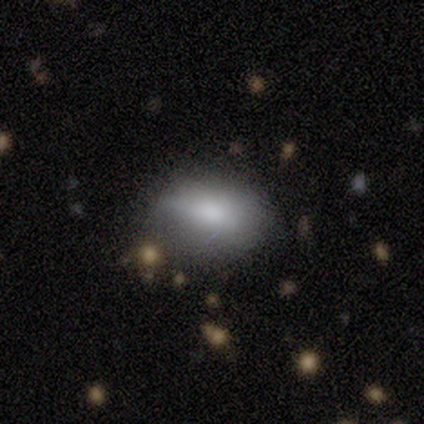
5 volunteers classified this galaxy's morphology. Overall: smooth (80%). How rounded: in between (100%). Merging: none (40%, tied with minor disturbance).